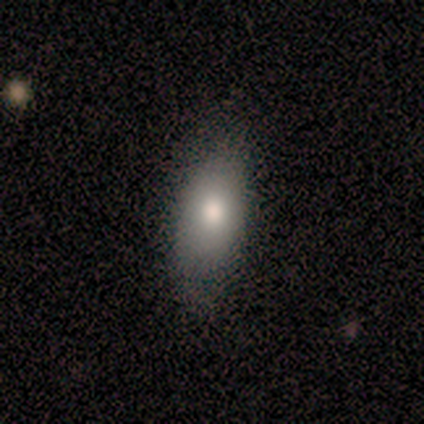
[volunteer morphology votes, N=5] smooth-or-featured: smooth: 100% | featured or disk: 0% | star or artifact: 0%
  how-rounded: in between: 100% | round: 0% | cigar-shaped: 0%
  merging: none: 60% | minor disturbance: 20% | major disturbance: 20% | merger: 0%